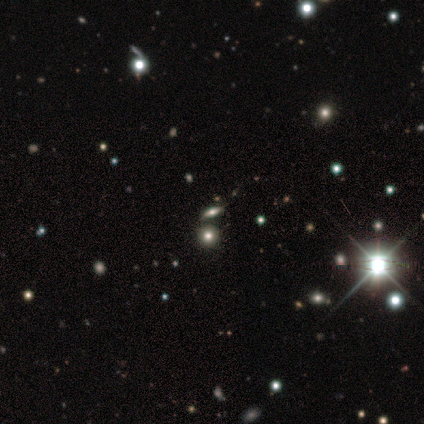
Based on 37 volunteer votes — Q: Smooth or featured?
A: star or artifact (54%); runner-up: smooth (32%)